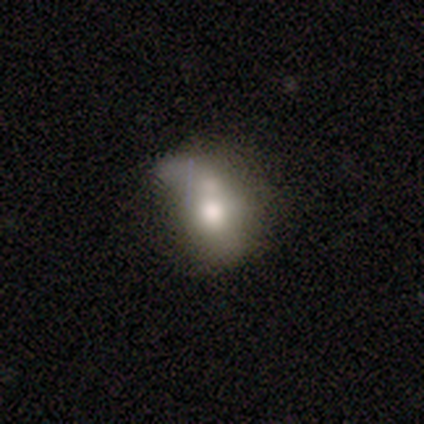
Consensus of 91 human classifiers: Overall: smooth (64%; featured or disk 25%). How rounded: in between (60%; round 33%). Merging: minor disturbance (31%; major disturbance 28%).